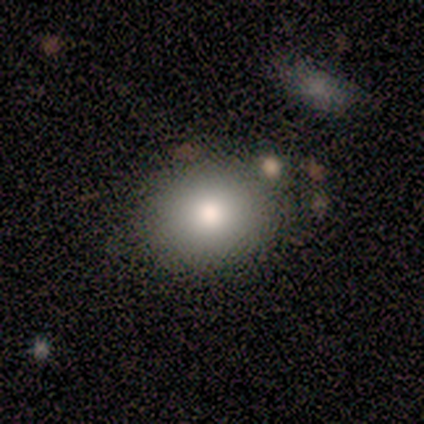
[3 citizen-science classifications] This is clearly a smooth galaxy (100%). How rounded: likely round (67%). Merging: likely none (67%).